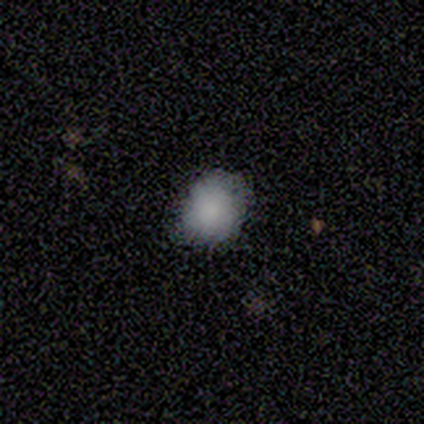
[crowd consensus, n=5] A smooth galaxy with no disk features (60%) that is round (67%). Merging: none (75%).